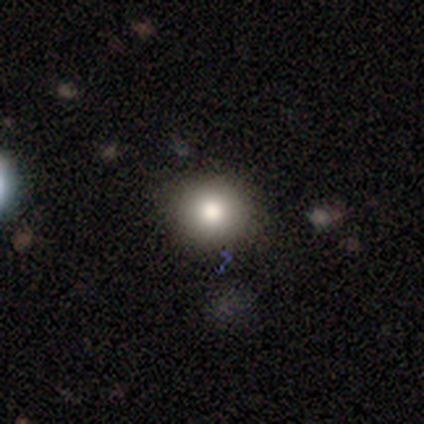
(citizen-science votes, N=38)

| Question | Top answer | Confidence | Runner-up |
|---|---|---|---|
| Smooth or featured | smooth | 79% | star or artifact (13%) |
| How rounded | round | 87% | in between (13%) |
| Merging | none | 79% | minor disturbance (21%) |